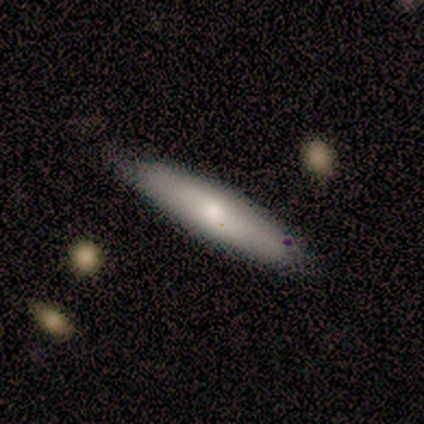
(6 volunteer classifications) Q: Smooth or featured?
A: smooth (83%); runner-up: featured or disk (17%)
Q: How rounded?
A: cigar-shaped (100%)
Q: Merging?
A: none (83%); runner-up: merger (17%)